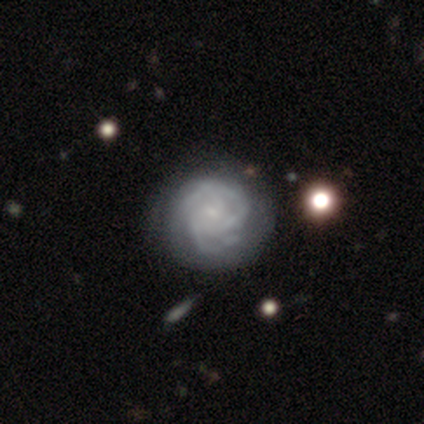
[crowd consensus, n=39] This appears to be a featured or disk galaxy (85%) with no bar (73%), 3 (32%) tight (61%) spiral arms (94%) and a small central bulge (70%). Merging: none (30%).